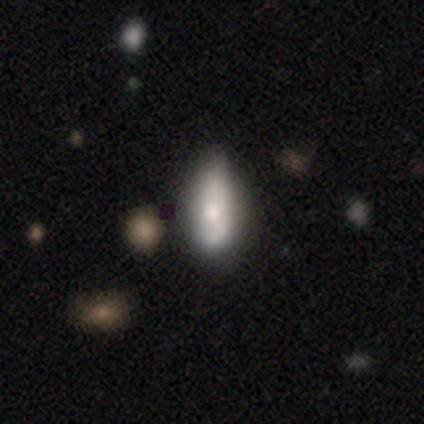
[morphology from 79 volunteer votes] This appears to be a smooth galaxy with no disk features (68%) that is in between round and cigar-shaped (70%). Merging: none (23%).